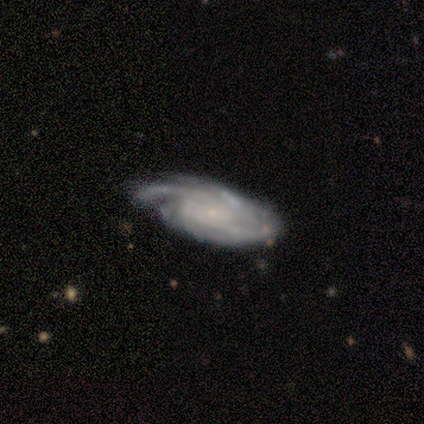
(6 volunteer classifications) Smooth or featured? 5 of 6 (83%) said featured or disk. Edge-on disk? 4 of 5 (80%) said no. Bar? 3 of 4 (75%) said no. Spiral arms? 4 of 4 (100%) said yes. Spiral winding? 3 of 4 (75%) said medium. Spiral arm count? 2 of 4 (50%) said 2. Bulge size? 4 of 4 (100%) said small. Merging? 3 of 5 (60%) said none.